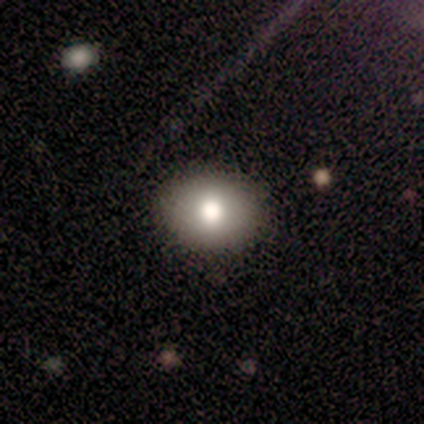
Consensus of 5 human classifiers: This appears to be a smooth galaxy with no disk features (100%) that is in between round and cigar-shaped (80%). Merging: none (100%).